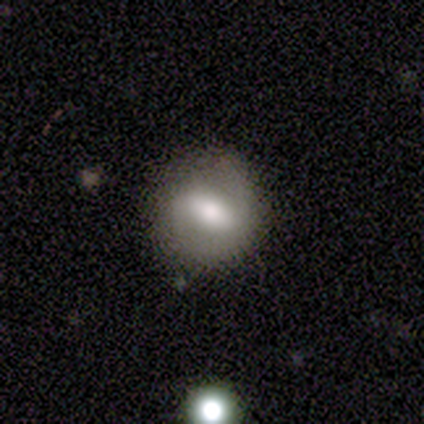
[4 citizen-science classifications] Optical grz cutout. It shows a smooth galaxy with no disk features (50%, tied with featured or disk) that is round (100%). Merging: none (75%).